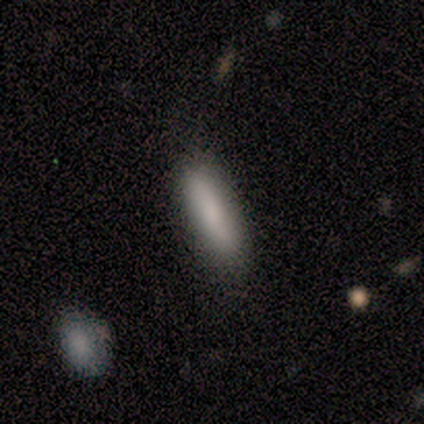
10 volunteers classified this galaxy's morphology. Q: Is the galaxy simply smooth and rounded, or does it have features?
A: smooth — 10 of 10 (100%).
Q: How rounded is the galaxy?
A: cigar-shaped — 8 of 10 (80%).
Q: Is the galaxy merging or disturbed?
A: none — 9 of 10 (90%).